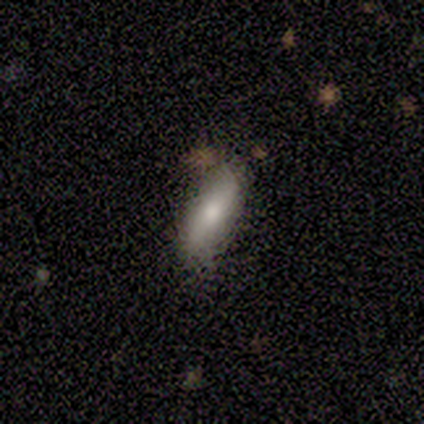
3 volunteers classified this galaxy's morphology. This is likely a featured or disk galaxy (67%). It is clearly not viewed edge-on (100%). Bar: clearly no (100%). Spiral arm pattern: possibly yes (50%, tied with no). Spiral arm count: clearly 2 (100%). Spiral winding: clearly loose (100%). Central bulge: possibly moderate (50%, tied with small). Merging: clearly none (100%).